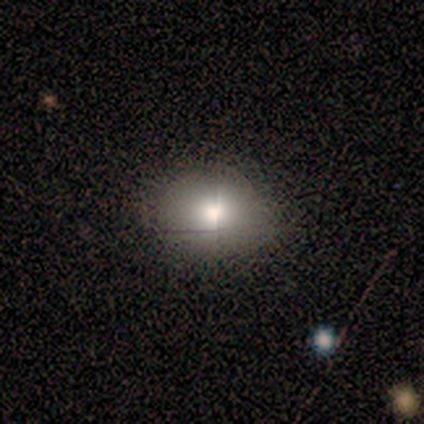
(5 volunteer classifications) A smooth galaxy with no disk features (60%) that is in between round and cigar-shaped (67%). Merging: none (100%).